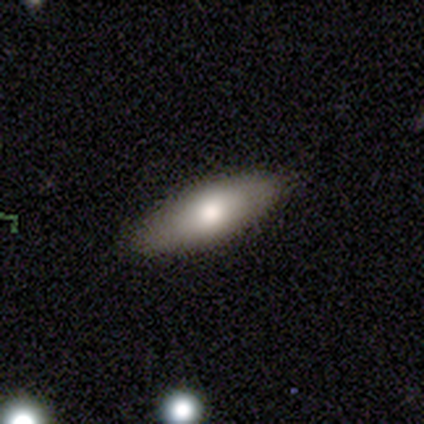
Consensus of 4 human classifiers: Q: Smooth or featured?
A: smooth (75%); runner-up: featured or disk (25%)
Q: How rounded?
A: in between (67%); runner-up: cigar-shaped (33%)
Q: Merging?
A: none (75%); runner-up: minor disturbance (25%)